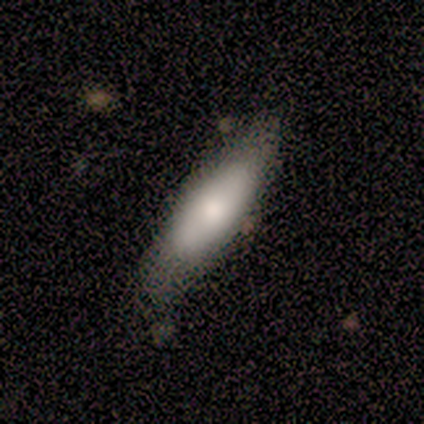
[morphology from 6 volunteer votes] Smooth or featured?
  - smooth: 67% *
  - featured or disk: 33%
  - star or artifact: 0%
How rounded?
  - in between: 75% *
  - cigar-shaped: 25%
  - round: 0%
Merging?
  - none: 83% *
  - minor disturbance: 17%
  - major disturbance: 0%
  - merger: 0%